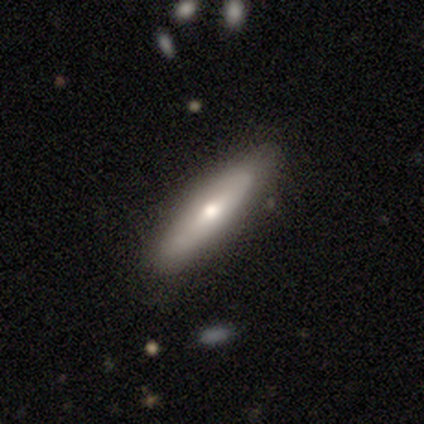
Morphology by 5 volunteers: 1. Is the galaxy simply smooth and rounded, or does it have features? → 60% featured or disk, 40% smooth, 0% star or artifact.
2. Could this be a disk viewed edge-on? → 67% yes, 33% no.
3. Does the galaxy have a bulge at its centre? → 100% rounded, 0% boxy, 0% none.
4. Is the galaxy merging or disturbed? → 80% none, 20% minor disturbance, 0% major disturbance, 0% merger.